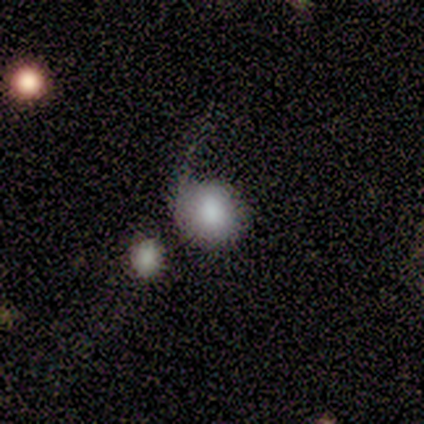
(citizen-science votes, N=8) smooth-or-featured: featured or disk: 50% | smooth: 38% | star or artifact: 12%
  disk-edge-on: no: 75% | yes: 25%
    bar: no: 100% | strong: 0% | weak: 0%
    has-spiral-arms: yes: 67% | no: 33%
      spiral-winding: tight: 50% (tied) | loose: 50% (tied) | medium: 0%
      spiral-arm-count: 1: 100% | 2: 0% | 3: 0% | 4: 0% | more than 4: 0% | can't tell: 0%
    bulge-size: moderate: 67% | small: 33% | dominant: 0% | large: 0% | none: 0%
  merging: minor disturbance: 43% | major disturbance: 29% | none: 14% | merger: 14%